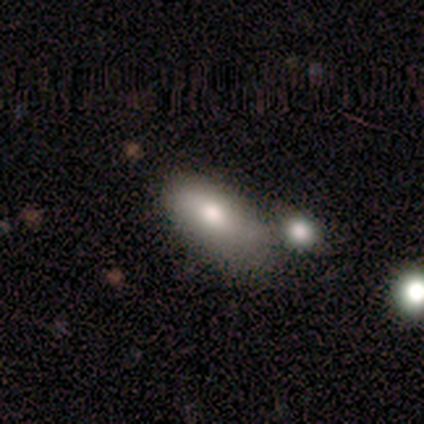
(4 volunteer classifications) smooth-or-featured: smooth: 75% | featured or disk: 25% | star or artifact: 0%
  how-rounded: in between: 100% | round: 0% | cigar-shaped: 0%
  merging: minor disturbance: 50% (tied) | merger: 50% (tied) | none: 0% | major disturbance: 0%